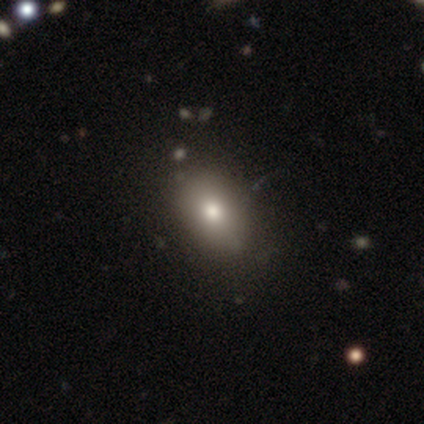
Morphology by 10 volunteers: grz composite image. It shows a smooth galaxy with no disk features (80%) that is in between round and cigar-shaped (100%). Merging: none (78%).